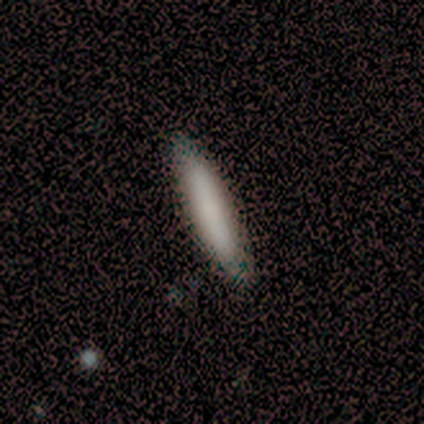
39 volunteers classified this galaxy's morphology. Volunteers were most divided on "merging": none: 58%, minor disturbance: 0%, major disturbance: 0%, merger: 0%. More confident: how rounded — cigar-shaped (88%); smooth or featured — smooth (85%).